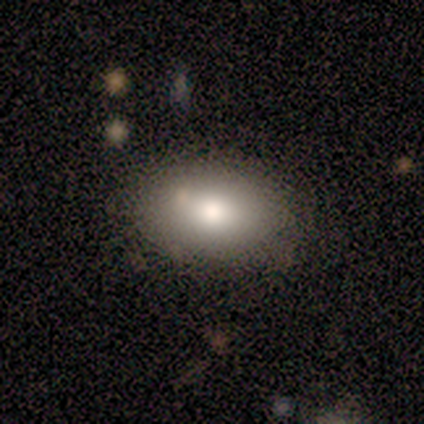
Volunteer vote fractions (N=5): This appears to be a smooth galaxy with no disk features (60%) that is in between round and cigar-shaped (100%). Merging: none (100%).